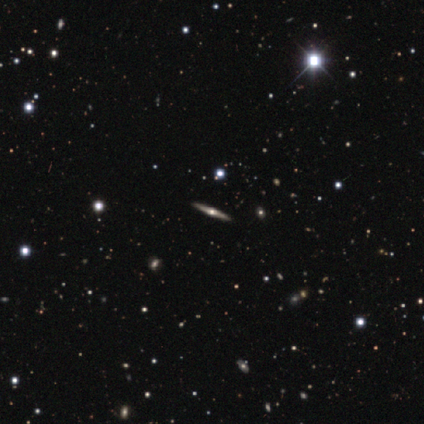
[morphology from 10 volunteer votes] Smooth or featured? featured or disk (100%)
Edge-on disk? yes (100%)
Edge-on bulge? rounded (100%)
Merging? none (100%)